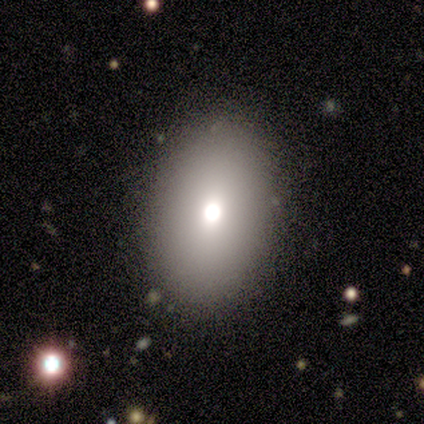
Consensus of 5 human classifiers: smooth_or_featured: smooth (p=0.40) [tied with: featured or disk p=0.40]
how_rounded: in between (p=1.00)
merging: none (p=1.00)